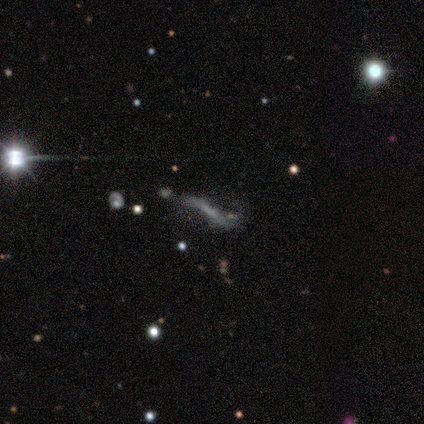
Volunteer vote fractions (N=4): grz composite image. It shows a featured or disk galaxy (50%, tied with star or artifact) with a weak bar (50%, tied with no), no spiral arms (100%) and no central bulge (100%). Merging: major disturbance (100%).